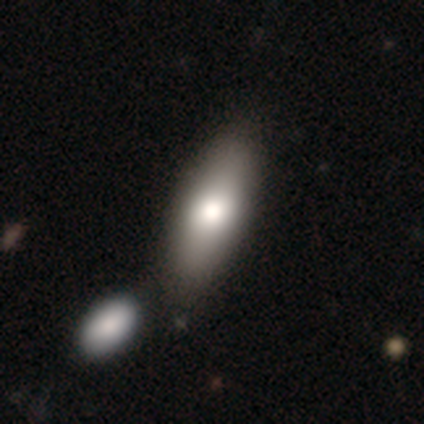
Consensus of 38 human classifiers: Smooth or featured?
  - smooth: 82% *
  - featured or disk: 18%
  - star or artifact: 0%
How rounded?
  - in between: 84% *
  - cigar-shaped: 16%
  - round: 0%
Merging?
  - none: 50% *
  - merger: 26%
  - minor disturbance: 3%
  - major disturbance: 3%